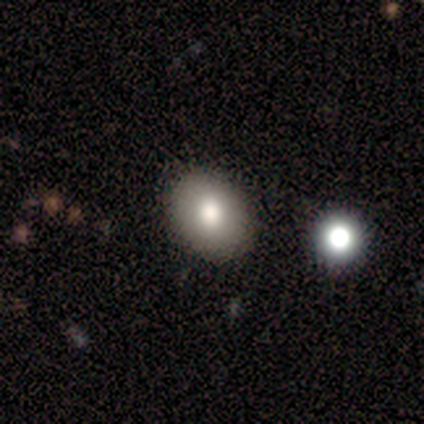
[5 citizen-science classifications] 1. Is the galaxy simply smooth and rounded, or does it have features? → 100% smooth, 0% featured or disk, 0% star or artifact.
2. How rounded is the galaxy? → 60% in between, 40% round, 0% cigar-shaped.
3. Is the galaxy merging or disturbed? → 100% none, 0% minor disturbance, 0% major disturbance, 0% merger.